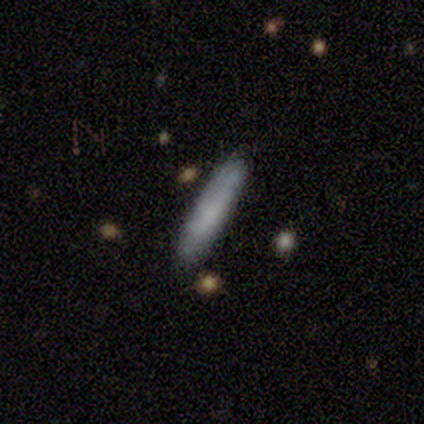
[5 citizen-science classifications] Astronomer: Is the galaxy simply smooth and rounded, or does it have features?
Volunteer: featured or disk — 60% (runner-up: smooth, 40%).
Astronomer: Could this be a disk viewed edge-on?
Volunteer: yes — 67%.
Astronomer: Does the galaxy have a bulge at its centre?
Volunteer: none — 50%, tied with rounded at 50%.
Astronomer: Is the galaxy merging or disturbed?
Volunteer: none — 80%.